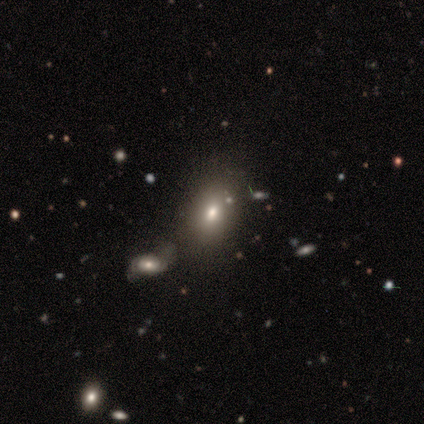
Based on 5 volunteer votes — Morphology: type=smooth (60%); roundness=in between (67%); merging=minor disturbance (50%).